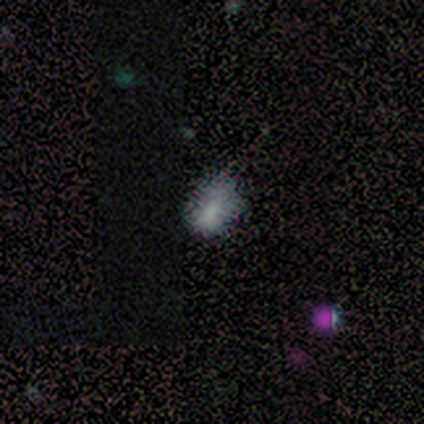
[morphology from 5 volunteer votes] Smooth or featured? smooth (80%)
How rounded? in between (75%)
Merging? none (100%)